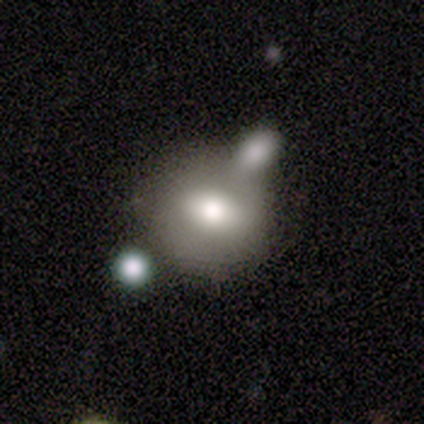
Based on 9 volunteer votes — smooth-or-featured: smooth: 67% | featured or disk: 22% | star or artifact: 11%
  how-rounded: in between: 67% | round: 33% | cigar-shaped: 0%
  merging: merger: 75% | none: 12% | major disturbance: 12% | minor disturbance: 0%